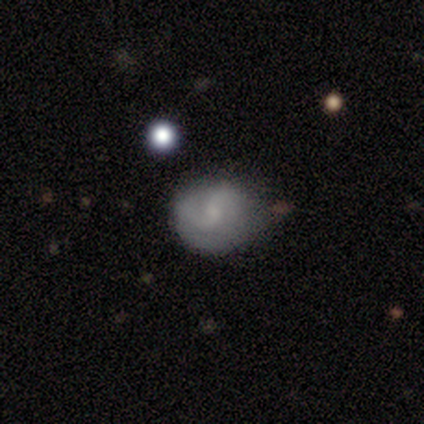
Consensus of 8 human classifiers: Overall: featured or disk (62%; smooth 38%). Edge-on disk: no (100%). Bar: weak (60%; no 40%). Spiral arms: yes (100%). Spiral arm count: 2 (100%). Spiral winding: tight (60%; medium 20%). Bulge size: small (100%). Merging: minor disturbance (75%).